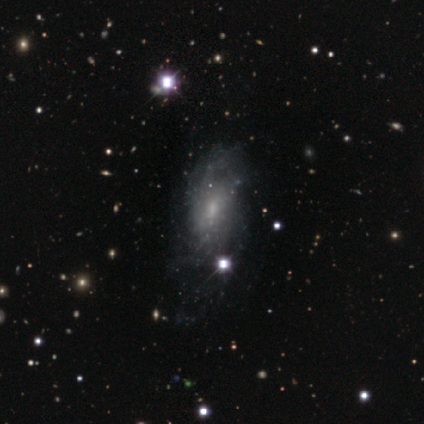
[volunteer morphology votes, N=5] Q: Smooth or featured?
A: featured or disk (80%); runner-up: star or artifact (20%)
Q: Edge-on disk?
A: no (100%)
Q: Bar?
A: weak (50%); tied with: no (50%)
Q: Spiral arms?
A: yes (50%); tied with: no (50%)
Q: Spiral winding?
A: tight (50%); tied with: medium (50%)
Q: Spiral arm count?
A: can't tell (100%)
Q: Bulge size?
A: none (50%); runner-up: moderate (25%)
Q: Merging?
A: minor disturbance (100%)